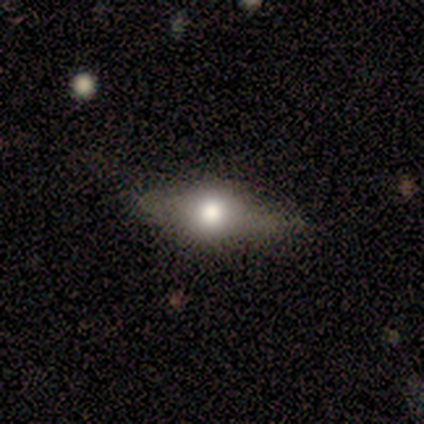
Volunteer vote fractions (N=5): featured or disk 60%, smooth 40%, star or artifact 0%. Down the decision tree: edge-on disk — yes (67%); edge-on bulge — rounded (100%); merging — none (80%).